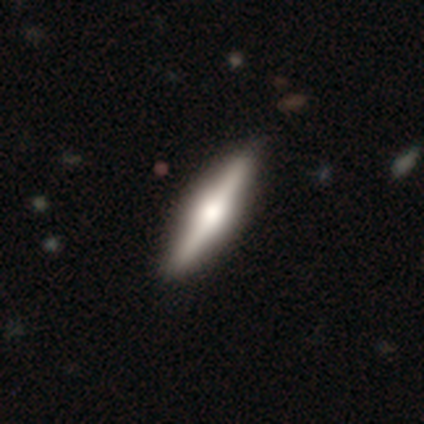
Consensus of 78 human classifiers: This appears to be a featured or disk galaxy (60%) viewed edge-on (98%) with a rounded central bulge (72%). Merging: none (46%).